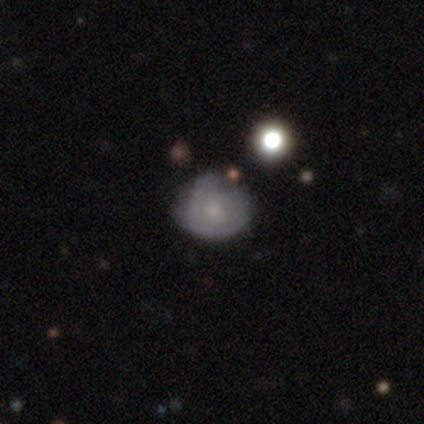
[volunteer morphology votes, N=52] Q: Smooth or featured?
A: smooth (52%); runner-up: featured or disk (38%)
Q: How rounded?
A: round (78%); runner-up: in between (22%)
Q: Merging?
A: none (45%); runner-up: minor disturbance (43%)